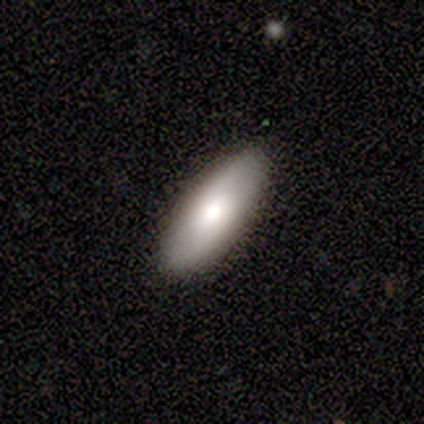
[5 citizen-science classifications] smooth_or_featured: smooth (p=0.80) [alt: featured or disk p=0.20]
how_rounded: in between (p=1.00)
merging: none (p=1.00)